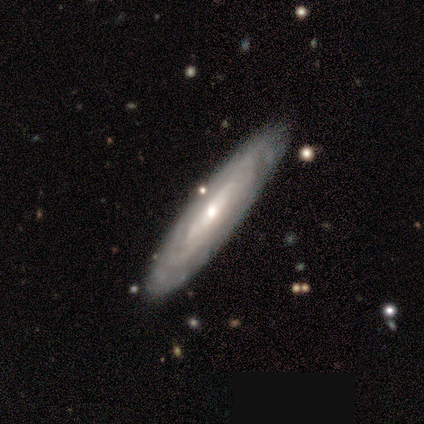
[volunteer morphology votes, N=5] Q: Smooth or featured?
A: featured or disk (80%); runner-up: smooth (20%)
Q: Edge-on disk?
A: no (75%); runner-up: yes (25%)
Q: Bar?
A: strong (33%); tied with: weak (33%); no (33%)
Q: Spiral arms?
A: yes (67%); runner-up: no (33%)
Q: Spiral winding?
A: tight (100%)
Q: Spiral arm count?
A: 4 (50%); tied with: can't tell (50%)
Q: Bulge size?
A: moderate (67%); runner-up: small (33%)
Q: Merging?
A: none (80%); runner-up: minor disturbance (20%)